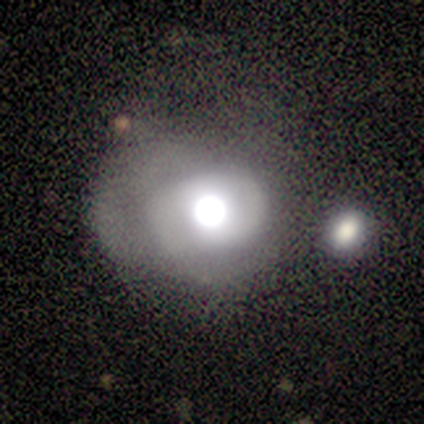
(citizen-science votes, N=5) Smooth or featured? 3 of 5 (60%) said smooth. How rounded? 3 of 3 (100%) said round. Merging? 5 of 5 (100%) said none.